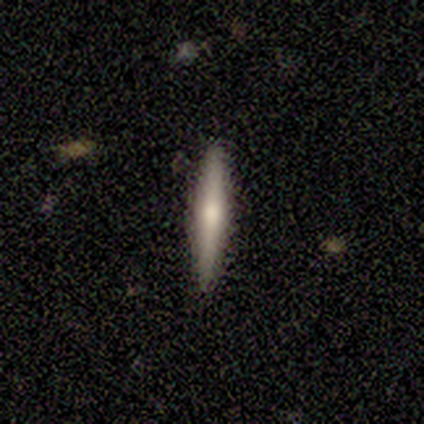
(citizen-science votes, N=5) Volunteers were most divided on "smooth or featured": smooth: 60%, featured or disk: 40%, star or artifact: 0%. More confident: how rounded — cigar-shaped (100%); merging — none (100%).